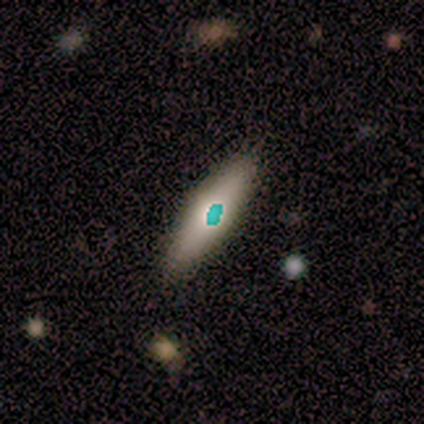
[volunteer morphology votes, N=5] smooth 80%, star or artifact 20%, featured or disk 0%. Down the decision tree: how rounded — in between (75%); merging — none (75%).